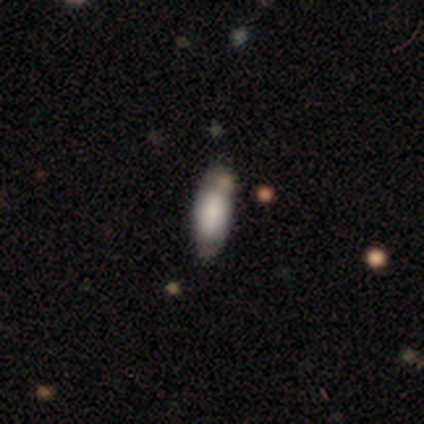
Morphology: type=smooth (57%); roundness=in between (75%); merging=none (67%).